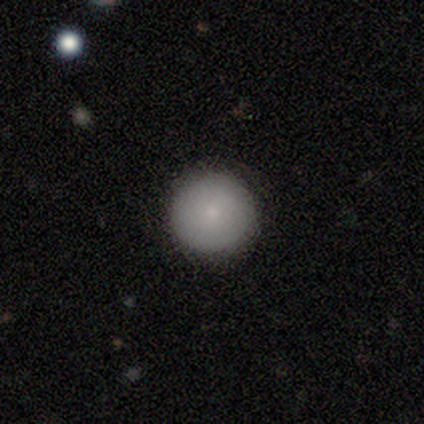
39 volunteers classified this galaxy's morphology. Overall: smooth (82%). How rounded: round (97%). Merging: none (97%).